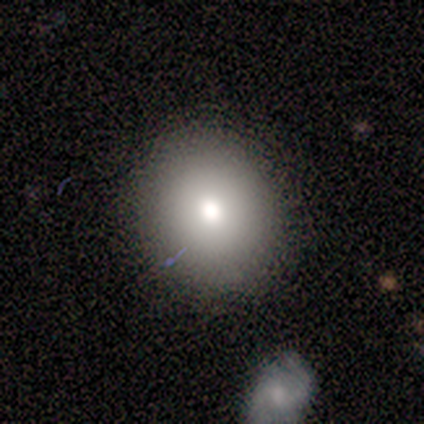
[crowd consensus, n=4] Overall: smooth (100%). How rounded: round (100%). Merging: none (75%).